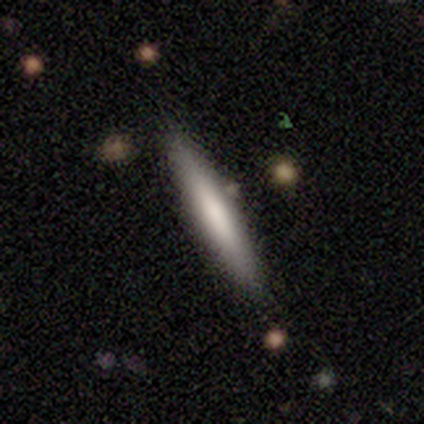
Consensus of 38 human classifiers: Q: Smooth or featured?
A: smooth (61%); runner-up: featured or disk (34%)
Q: How rounded?
A: cigar-shaped (100%)
Q: Merging?
A: none (89%); runner-up: minor disturbance (8%)